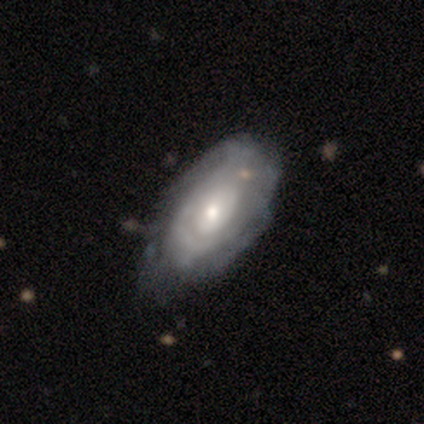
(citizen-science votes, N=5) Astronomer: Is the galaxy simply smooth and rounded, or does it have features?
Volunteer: featured or disk — 100%.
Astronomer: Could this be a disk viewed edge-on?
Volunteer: no — 100%.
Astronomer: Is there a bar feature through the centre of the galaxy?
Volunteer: no — 80%.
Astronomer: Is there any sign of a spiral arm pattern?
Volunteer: yes — 60% (runner-up: no, 40%).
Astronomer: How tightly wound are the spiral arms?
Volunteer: tight — 100%.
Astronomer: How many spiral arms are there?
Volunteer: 1 — 33%, tied with more than 4 and can't tell at 33%.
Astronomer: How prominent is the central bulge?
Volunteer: moderate — 40%, tied with small at 40%.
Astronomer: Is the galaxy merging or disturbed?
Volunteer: none — 40%, tied with minor disturbance at 40%.